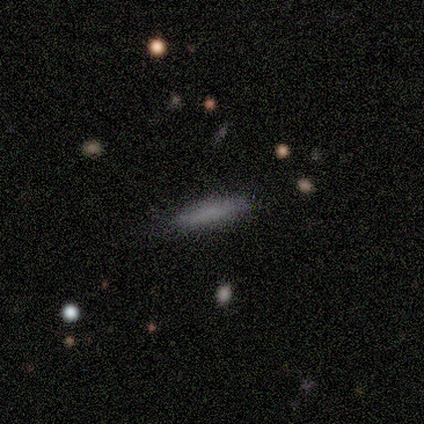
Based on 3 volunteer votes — Smooth or featured: smooth — 67% (featured or disk — 33%)
How rounded: in between — 50% (tied with cigar-shaped — 50%)
Merging: none — 100%